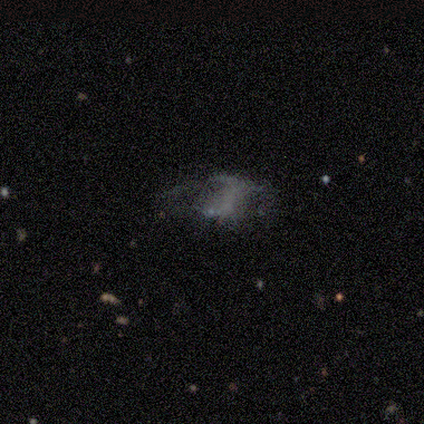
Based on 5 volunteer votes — A star or artifact, not a galaxy (60%).

Vote fractions:
- Smooth or featured? star or artifact: 60% / smooth: 20% / featured or disk: 20%